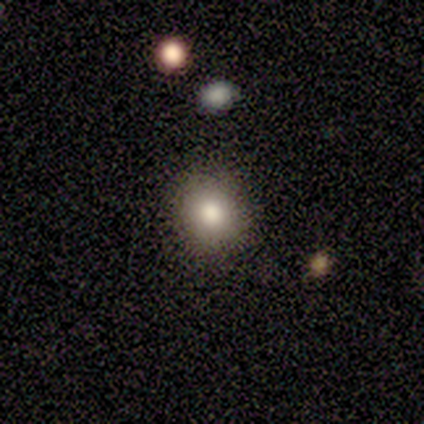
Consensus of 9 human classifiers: A smooth galaxy with no disk features (100%) that is round (89%).

Vote fractions:
- Smooth or featured? smooth: 100% / featured or disk: 0% / star or artifact: 0%
- How rounded? round: 89% / in between: 11% / cigar-shaped: 0%
- Merging? none: 78% / minor disturbance: 22% / major disturbance: 0% / merger: 0%